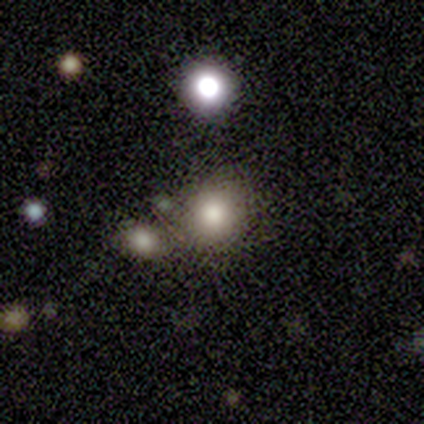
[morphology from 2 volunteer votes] Smooth or featured?
  - smooth: 50% * (tied)
  - star or artifact: 50% * (tied)
  - featured or disk: 0%
How rounded?
  - in between: 100% *
  - round: 0%
  - cigar-shaped: 0%
Merging?
  - none: 100% *
  - minor disturbance: 0%
  - major disturbance: 0%
  - merger: 0%